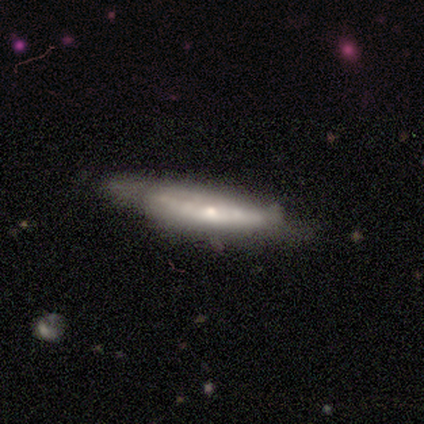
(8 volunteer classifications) Volunteers were most divided on "edge-on bulge": rounded: 71%, none: 29%, boxy: 0%. More confident: edge-on disk — yes (100%); smooth or featured — featured or disk (88%); merging — none (88%).